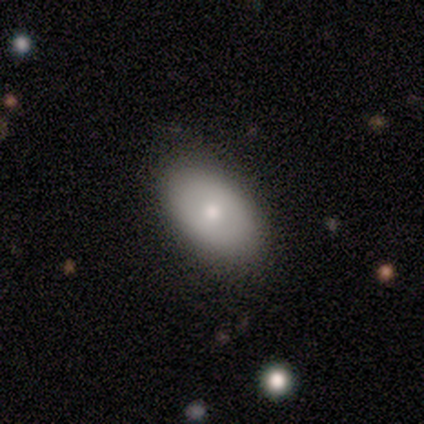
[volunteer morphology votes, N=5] smooth 60%, featured or disk 40%, star or artifact 0%. Down the decision tree: how rounded — in between (100%); merging — none (80%).